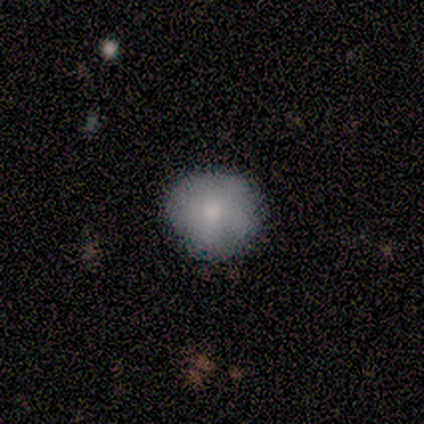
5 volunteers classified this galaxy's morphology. Volunteers were most divided on "how rounded": round: 80%, in between: 20%, cigar-shaped: 0%. More confident: smooth or featured — smooth (100%); merging — none (80%).